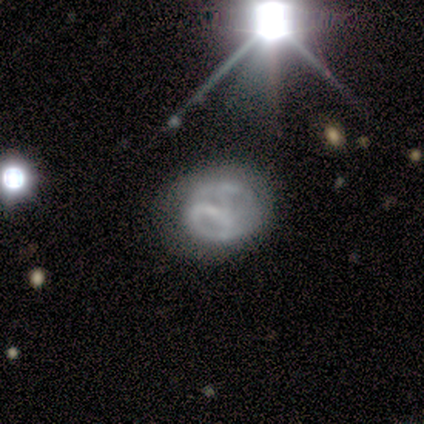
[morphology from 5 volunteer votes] Smooth or featured?
  - featured or disk: 80% *
  - smooth: 20%
  - star or artifact: 0%
Edge-on disk?
  - no: 100% *
  - yes: 0%
Bar?
  - strong: 100% *
  - weak: 0%
  - no: 0%
Spiral arms?
  - no: 75% *
  - yes: 25%
Bulge size?
  - none: 100% *
  - dominant: 0%
  - large: 0%
  - moderate: 0%
  - small: 0%
Merging?
  - none: 60% *
  - minor disturbance: 20%
  - major disturbance: 20%
  - merger: 0%